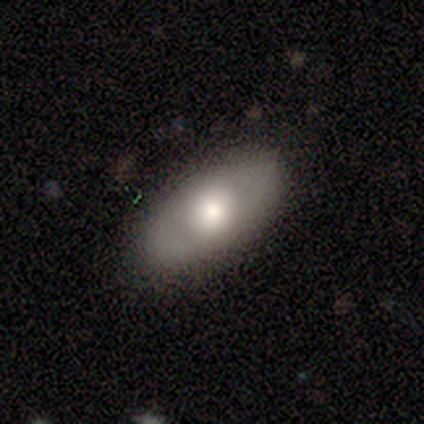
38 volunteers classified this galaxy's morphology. Smooth or featured?
  - smooth: 61% *
  - featured or disk: 29%
  - star or artifact: 11%
How rounded?
  - in between: 87% *
  - round: 9%
  - cigar-shaped: 4%
Merging?
  - none: 82% *
  - minor disturbance: 15%
  - merger: 3%
  - major disturbance: 0%